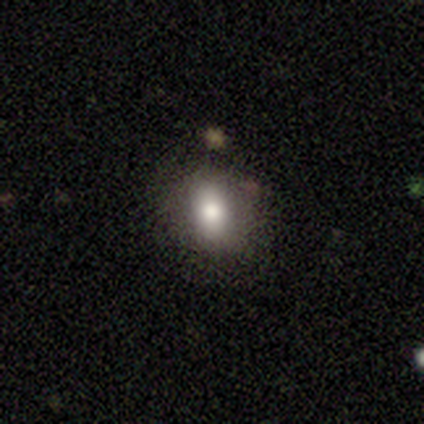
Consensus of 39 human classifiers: Q: Smooth or featured?
A: smooth (62%); runner-up: featured or disk (21%)
Q: How rounded?
A: in between (58%); runner-up: round (42%)
Q: Merging?
A: none (84%); runner-up: minor disturbance (12%)